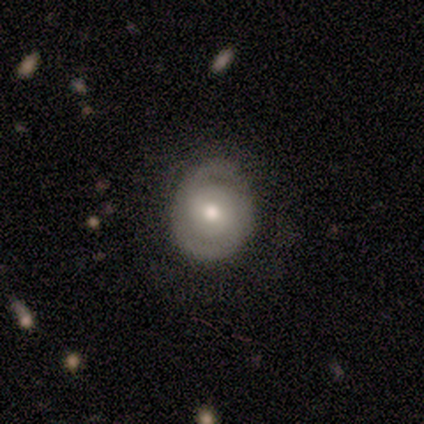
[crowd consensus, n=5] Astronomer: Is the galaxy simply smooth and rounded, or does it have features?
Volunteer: featured or disk — 80%.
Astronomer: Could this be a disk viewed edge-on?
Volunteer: no — 100%.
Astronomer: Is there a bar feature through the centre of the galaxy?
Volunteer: no — 100%.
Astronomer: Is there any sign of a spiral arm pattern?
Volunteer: yes — 50%, tied with no at 50%.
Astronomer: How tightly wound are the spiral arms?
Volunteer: loose — 100%.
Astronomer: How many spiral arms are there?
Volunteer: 2 — 100%.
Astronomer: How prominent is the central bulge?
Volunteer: moderate — 100%.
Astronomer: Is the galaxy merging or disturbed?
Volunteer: none — 80%.